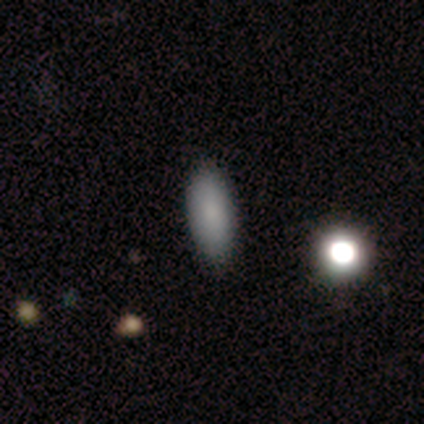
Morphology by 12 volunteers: type=smooth (92%); roundness=in between (73%); merging=none (92%).